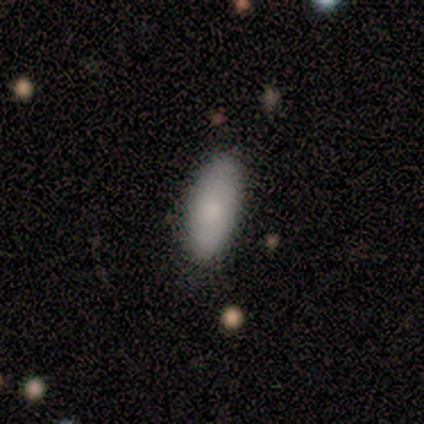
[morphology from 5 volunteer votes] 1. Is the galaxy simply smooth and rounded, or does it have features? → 100% smooth, 0% featured or disk, 0% star or artifact.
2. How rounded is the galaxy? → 100% in between, 0% round, 0% cigar-shaped.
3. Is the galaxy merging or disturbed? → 100% none, 0% minor disturbance, 0% major disturbance, 0% merger.